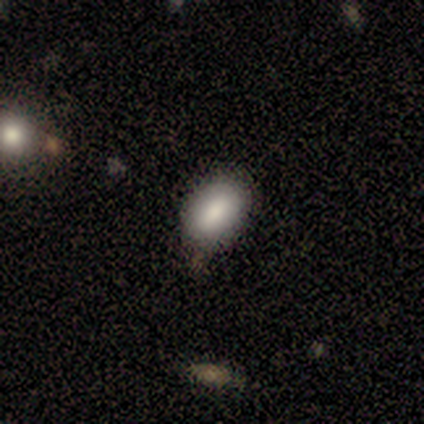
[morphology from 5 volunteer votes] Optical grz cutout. It shows a smooth galaxy with no disk features (100%) that is in between round and cigar-shaped (100%). Merging: none (60%).